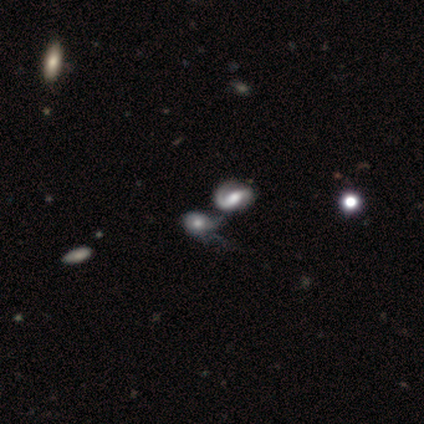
smooth-or-featured: star or artifact: 50% | smooth: 25% | featured or disk: 25%